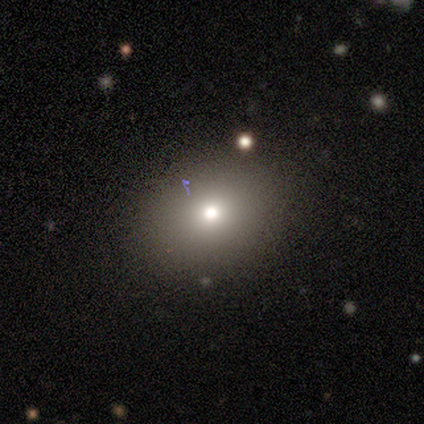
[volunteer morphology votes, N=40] This appears to be a smooth galaxy with no disk features (72%) that is round (55%). Merging: none (80%).